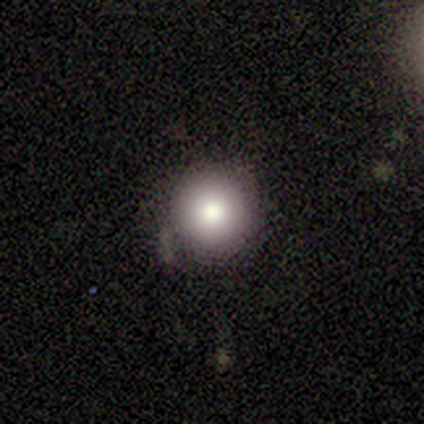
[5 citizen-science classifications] smooth_or_featured: smooth (p=0.80) [alt: star or artifact p=0.20]
how_rounded: round (p=1.00)
merging: none (p=0.50) [tied with: minor disturbance p=0.50]